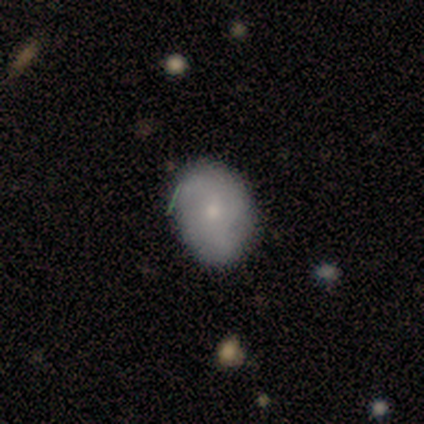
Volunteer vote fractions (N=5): A featured or disk galaxy (60%) with no bar (100%), no spiral arms (100%) and a moderate central bulge (50%, tied with small).

Vote fractions:
- Smooth or featured? featured or disk: 60% / smooth: 40% / star or artifact: 0%
- Edge-on disk? no: 67% / yes: 33%
- Bar? no: 100% / strong: 0% / weak: 0%
- Spiral arms? no: 100% / yes: 0%
- Bulge size? moderate: 50% (tied) / small: 50% (tied) / dominant: 0% / large: 0% / none: 0%
- Merging? none: 60% / minor disturbance: 20% / major disturbance: 20% / merger: 0%